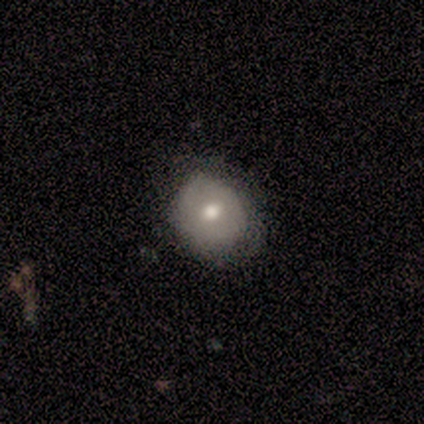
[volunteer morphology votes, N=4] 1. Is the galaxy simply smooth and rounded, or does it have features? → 100% smooth, 0% featured or disk, 0% star or artifact.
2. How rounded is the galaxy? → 50% round (tied), 50% in between (tied), 0% cigar-shaped.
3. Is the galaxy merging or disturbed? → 50% none (tied), 50% minor disturbance (tied), 0% major disturbance, 0% merger.